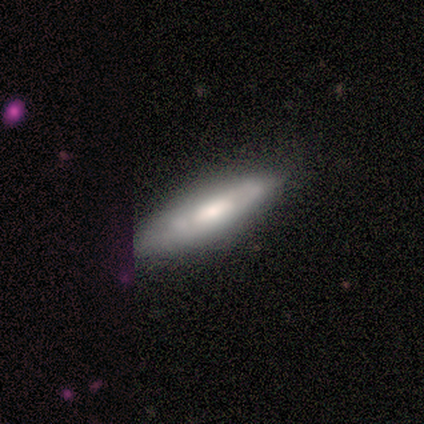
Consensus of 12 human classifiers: smooth_or_featured: featured or disk (p=0.67) [alt: smooth p=0.17]
disk_edge_on: yes (p=0.50) [tied with: no p=0.50]
edge_on_bulge: rounded (p=1.00)
merging: none (p=0.90) [alt: minor disturbance p=0.10]